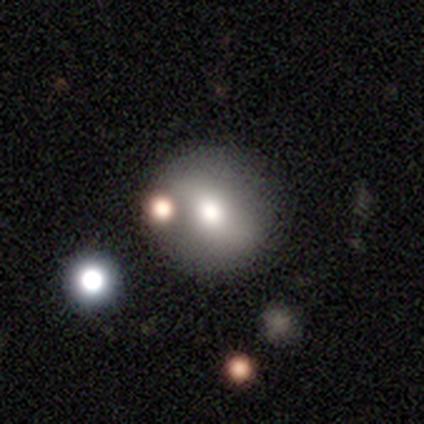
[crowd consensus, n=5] Volunteers were most divided on "smooth or featured": smooth: 60%, featured or disk: 40%, star or artifact: 0%. More confident: how rounded — round (67%); merging — merger (60%).